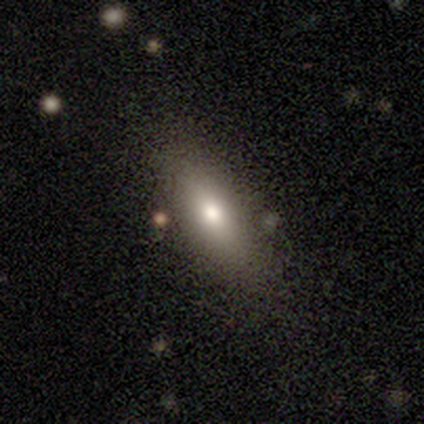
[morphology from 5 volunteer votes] Volunteers were most divided on "how rounded": in between: 75%, cigar-shaped: 25%, round: 0%. More confident: smooth or featured — smooth (80%); merging — none (80%).